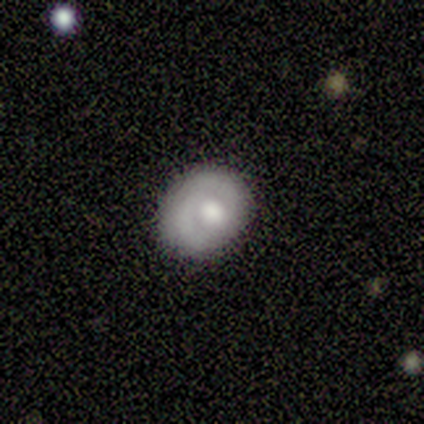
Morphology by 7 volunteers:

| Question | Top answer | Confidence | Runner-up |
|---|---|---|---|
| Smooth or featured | smooth | 57% | featured or disk (43%) |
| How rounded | in between | 75% | round (25%) |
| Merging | none | 86% | major disturbance (14%) |